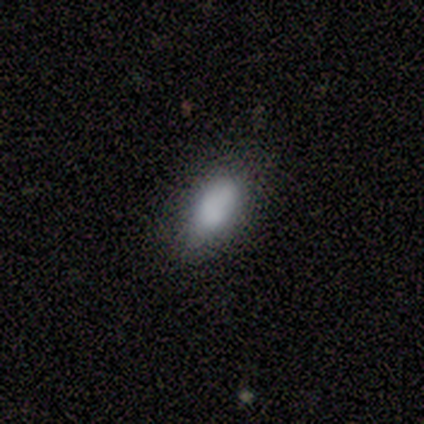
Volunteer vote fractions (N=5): Smooth or featured?
  - smooth: 100% *
  - featured or disk: 0%
  - star or artifact: 0%
How rounded?
  - in between: 100% *
  - round: 0%
  - cigar-shaped: 0%
Merging?
  - none: 100% *
  - minor disturbance: 0%
  - major disturbance: 0%
  - merger: 0%